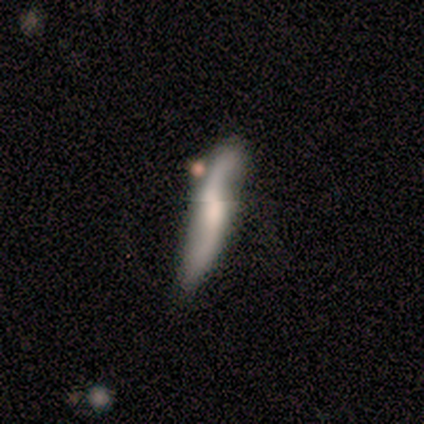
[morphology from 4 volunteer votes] Smooth or featured?
  - featured or disk: 75% *
  - star or artifact: 25%
  - smooth: 0%
Edge-on disk?
  - yes: 67% *
  - no: 33%
Edge-on bulge?
  - boxy: 50% * (tied)
  - none: 50% * (tied)
  - rounded: 0%
Merging?
  - none: 100% *
  - minor disturbance: 0%
  - major disturbance: 0%
  - merger: 0%